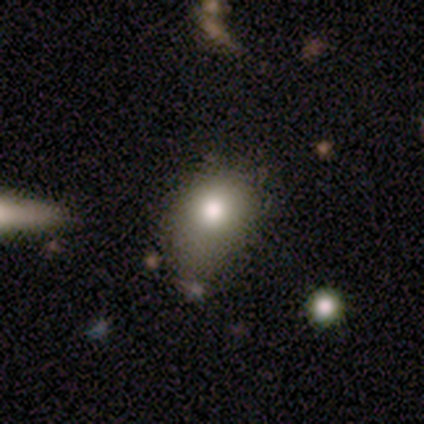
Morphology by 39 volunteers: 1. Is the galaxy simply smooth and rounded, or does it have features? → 77% smooth, 13% featured or disk, 10% star or artifact.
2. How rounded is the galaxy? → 60% in between, 40% round, 0% cigar-shaped.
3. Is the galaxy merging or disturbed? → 57% minor disturbance, 23% none, 17% major disturbance, 3% merger.